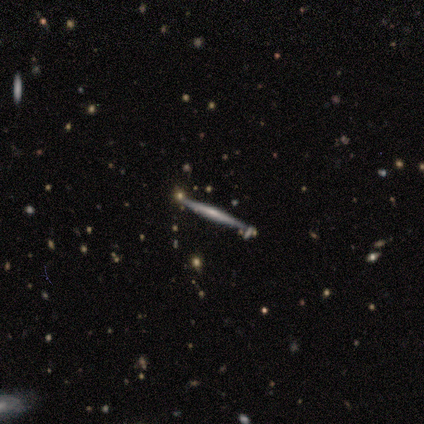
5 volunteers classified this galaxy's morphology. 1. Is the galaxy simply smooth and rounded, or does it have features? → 80% featured or disk, 20% smooth, 0% star or artifact.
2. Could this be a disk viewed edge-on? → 100% yes, 0% no.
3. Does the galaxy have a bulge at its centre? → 75% none, 25% boxy, 0% rounded.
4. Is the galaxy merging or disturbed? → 80% none, 20% merger, 0% minor disturbance, 0% major disturbance.